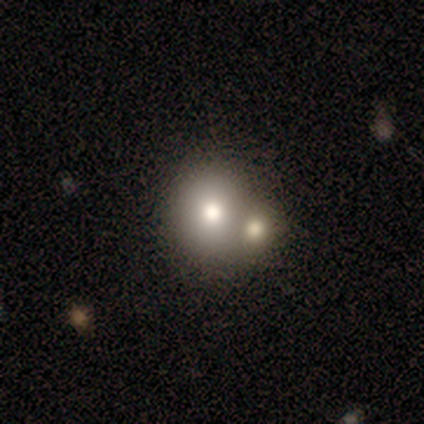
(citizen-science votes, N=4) smooth-or-featured: smooth: 50% (tied) | featured or disk: 50% (tied) | star or artifact: 0%
  how-rounded: round: 100% | in between: 0% | cigar-shaped: 0%
  merging: merger: 75% | major disturbance: 25% | none: 0% | minor disturbance: 0%